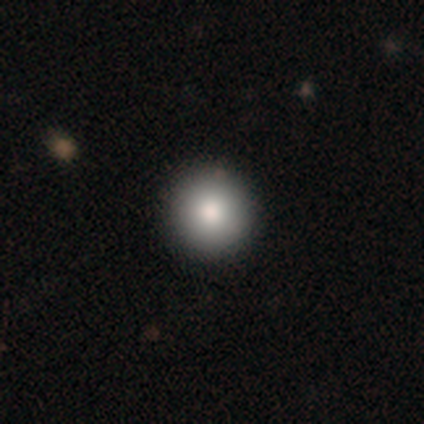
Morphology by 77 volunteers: smooth 94%, star or artifact 5%, featured or disk 1%. Down the decision tree: how rounded — round (99%); merging — none (45%).